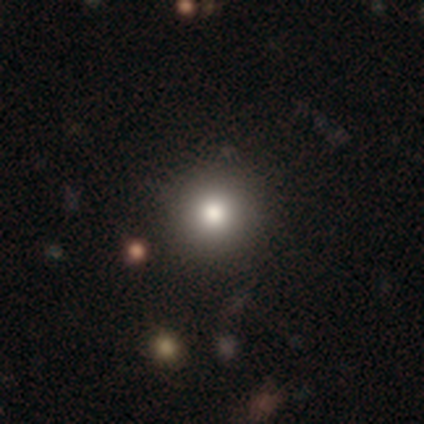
This appears to be a smooth galaxy with no disk features (86%) that is round (100%). Merging: none (47%).